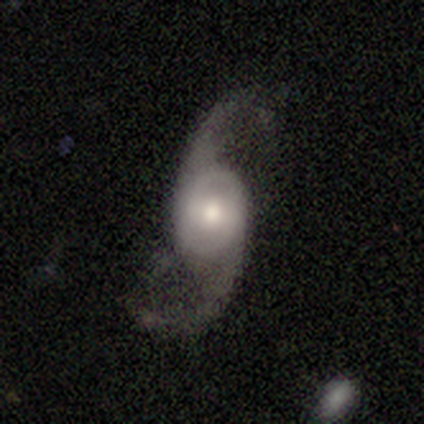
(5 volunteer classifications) smooth-or-featured: featured or disk: 100% | smooth: 0% | star or artifact: 0%
  disk-edge-on: no: 100% | yes: 0%
    bar: no: 60% | weak: 40% | strong: 0%
    has-spiral-arms: yes: 100% | no: 0%
      spiral-winding: loose: 80% | medium: 20% | tight: 0%
      spiral-arm-count: 2: 100% | 1: 0% | 3: 0% | 4: 0% | more than 4: 0% | can't tell: 0%
    bulge-size: moderate: 40% (tied) | small: 40% (tied) | large: 20% | dominant: 0% | none: 0%
  merging: none: 80% | minor disturbance: 20% | major disturbance: 0% | merger: 0%